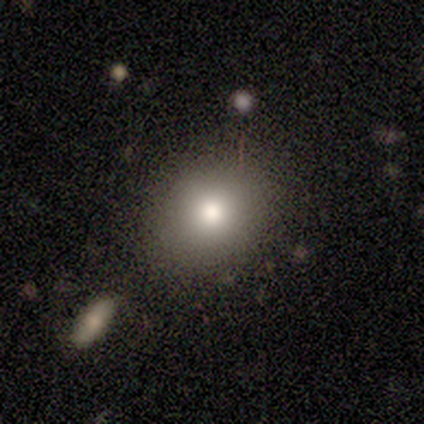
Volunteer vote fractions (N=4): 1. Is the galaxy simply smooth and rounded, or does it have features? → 100% smooth, 0% featured or disk, 0% star or artifact.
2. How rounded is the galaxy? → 50% round, 25% in between, 25% cigar-shaped.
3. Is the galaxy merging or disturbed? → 75% none, 25% merger, 0% minor disturbance, 0% major disturbance.